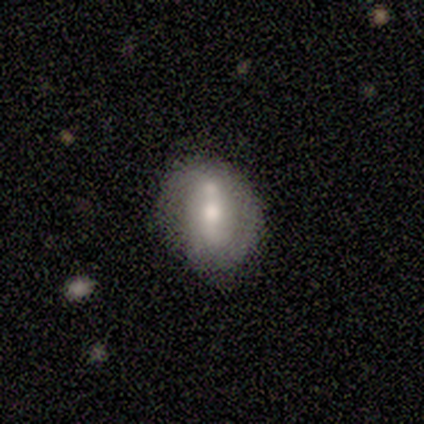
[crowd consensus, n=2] Smooth or featured? 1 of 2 (50%, tied with featured or disk) said smooth. How rounded? 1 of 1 (100%) said in between. Merging? 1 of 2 (50%, tied with minor disturbance) said none.